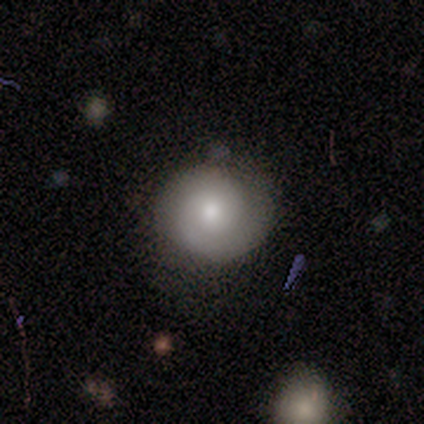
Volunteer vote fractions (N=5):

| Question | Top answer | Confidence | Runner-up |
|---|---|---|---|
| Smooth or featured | featured or disk | 60% | smooth (40%) |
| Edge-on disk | no | 100% | — |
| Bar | no | 100% | — |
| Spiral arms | yes | 100% | — |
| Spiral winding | tight | 67% | medium (33%) |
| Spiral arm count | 2 | 100% | — |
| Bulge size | moderate | 67% | large (33%) |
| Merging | none | 80% | minor disturbance (20%) |